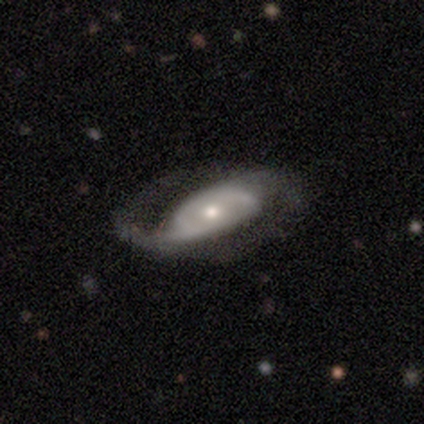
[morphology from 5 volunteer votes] Overall: featured or disk (60%; smooth 20%). Edge-on disk: no (100%). Bar: no (100%). Spiral arms: yes (100%). Spiral arm count: 2 (100%). Spiral winding: loose (67%; tight 33%). Bulge size: large (33%, tied with moderate and small). Merging: none (50%, tied with minor disturbance).